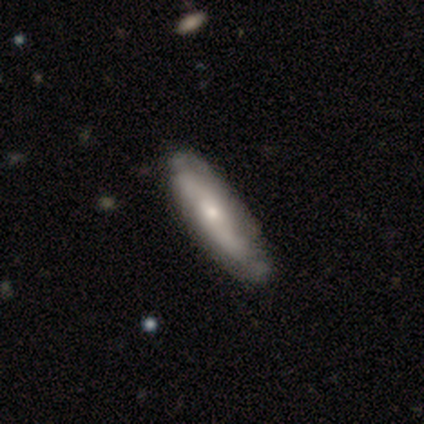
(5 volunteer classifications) smooth-or-featured: featured or disk: 60% | smooth: 40% | star or artifact: 0%
  disk-edge-on: no: 67% | yes: 33%
    bar: no: 100% | strong: 0% | weak: 0%
    has-spiral-arms: yes: 100% | no: 0%
      spiral-winding: loose: 100% | tight: 0% | medium: 0%
      spiral-arm-count: 2: 50% (tied) | can't tell: 50% (tied) | 1: 0% | 3: 0% | 4: 0% | more than 4: 0%
    bulge-size: moderate: 50% (tied) | small: 50% (tied) | dominant: 0% | large: 0% | none: 0%
  merging: none: 80% | minor disturbance: 20% | major disturbance: 0% | merger: 0%